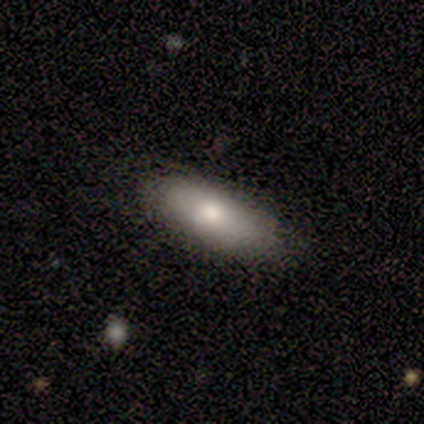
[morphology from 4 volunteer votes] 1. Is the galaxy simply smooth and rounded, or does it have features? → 100% smooth, 0% featured or disk, 0% star or artifact.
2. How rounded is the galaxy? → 100% in between, 0% round, 0% cigar-shaped.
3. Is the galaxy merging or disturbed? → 100% none, 0% minor disturbance, 0% major disturbance, 0% merger.